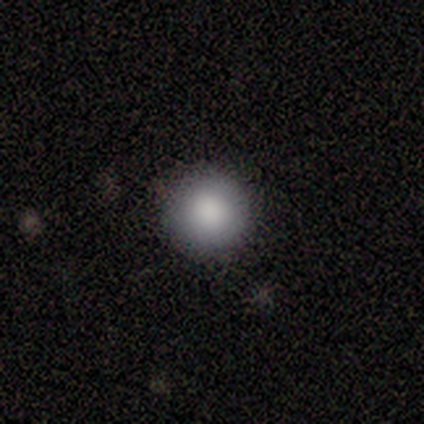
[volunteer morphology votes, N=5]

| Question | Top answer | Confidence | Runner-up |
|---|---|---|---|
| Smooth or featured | smooth | 60% | featured or disk (20%) |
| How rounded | round | 100% | — |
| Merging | none | 100% | — |